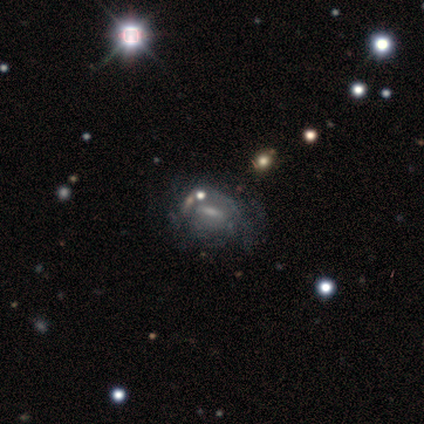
This appears to be a featured or disk galaxy (64%) with a weak bar (49%), tight (48%, tied with medium) spiral arms (54%) and a small central bulge (38%). Merging: none (48%).